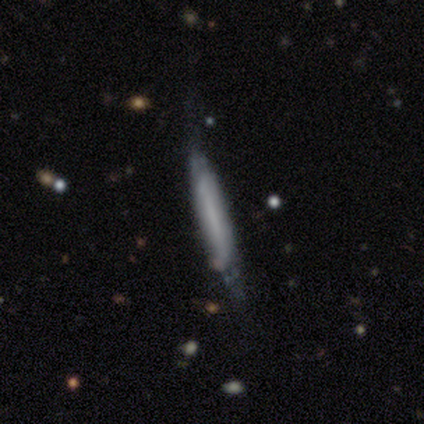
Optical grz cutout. It shows a featured or disk galaxy (51%) viewed edge-on (75%) with no central bulge (80%). Merging: none (58%).